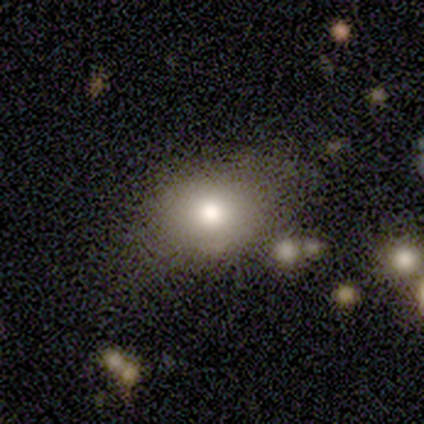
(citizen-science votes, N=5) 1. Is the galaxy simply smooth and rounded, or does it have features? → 100% smooth, 0% featured or disk, 0% star or artifact.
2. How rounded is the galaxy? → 60% in between, 40% round, 0% cigar-shaped.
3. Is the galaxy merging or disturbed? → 80% none, 20% major disturbance, 0% minor disturbance, 0% merger.